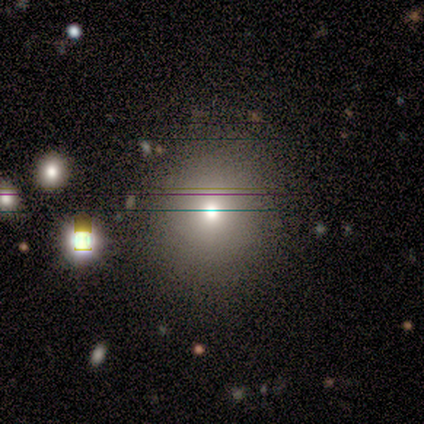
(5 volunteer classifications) Smooth or featured?
  - smooth: 40% * (tied)
  - featured or disk: 40% * (tied)
  - star or artifact: 20%
How rounded?
  - round: 50% * (tied)
  - in between: 50% * (tied)
  - cigar-shaped: 0%
Merging?
  - none: 75% *
  - major disturbance: 25%
  - minor disturbance: 0%
  - merger: 0%